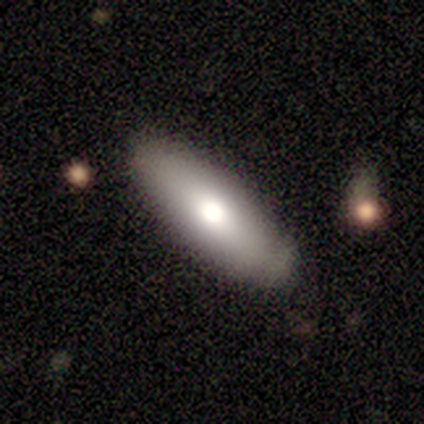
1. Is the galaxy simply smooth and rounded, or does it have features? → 75% smooth, 25% featured or disk, 0% star or artifact.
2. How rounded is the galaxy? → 67% in between, 33% cigar-shaped, 0% round.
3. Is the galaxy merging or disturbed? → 50% none (tied), 50% minor disturbance (tied), 0% major disturbance, 0% merger.